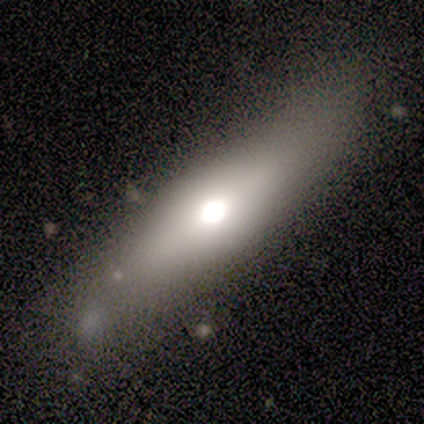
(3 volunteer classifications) Overall: featured or disk (67%; smooth 33%). Edge-on disk: yes (100%). Edge-on bulge: rounded (100%). Merging: none (100%).